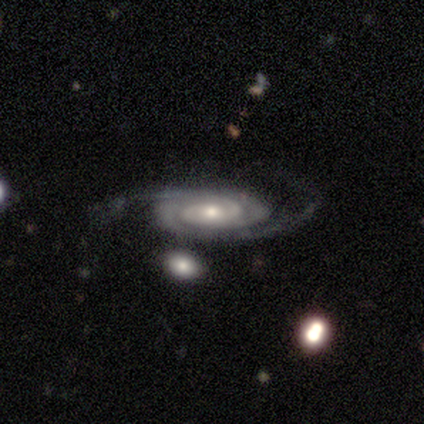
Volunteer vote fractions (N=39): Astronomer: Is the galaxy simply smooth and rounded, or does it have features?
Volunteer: featured or disk — 95%.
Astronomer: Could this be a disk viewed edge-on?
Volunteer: no — 95%.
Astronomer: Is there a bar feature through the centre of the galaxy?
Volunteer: no — 74%.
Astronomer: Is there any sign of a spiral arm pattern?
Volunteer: yes — 97%.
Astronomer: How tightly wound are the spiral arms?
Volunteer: tight — 71%.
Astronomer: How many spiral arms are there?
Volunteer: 2 — 74%.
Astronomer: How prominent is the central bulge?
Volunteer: small — 54% (runner-up: moderate, 46%).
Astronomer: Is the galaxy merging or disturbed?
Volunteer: none — 79%.